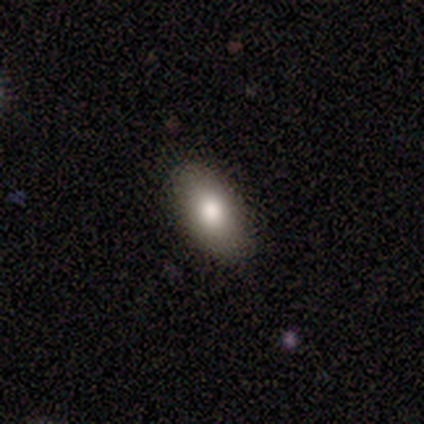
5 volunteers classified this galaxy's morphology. smooth_or_featured: smooth (p=0.80) [alt: featured or disk p=0.20]
how_rounded: in between (p=0.75) [alt: cigar-shaped p=0.25]
merging: none (p=0.80) [alt: minor disturbance p=0.20]